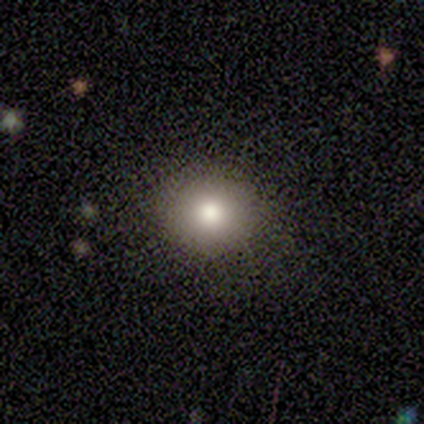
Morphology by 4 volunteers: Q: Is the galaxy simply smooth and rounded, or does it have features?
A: smooth — 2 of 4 (50%, tied with star or artifact).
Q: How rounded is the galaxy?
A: round — 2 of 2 (100%).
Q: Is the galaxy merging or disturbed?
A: none — 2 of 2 (100%).